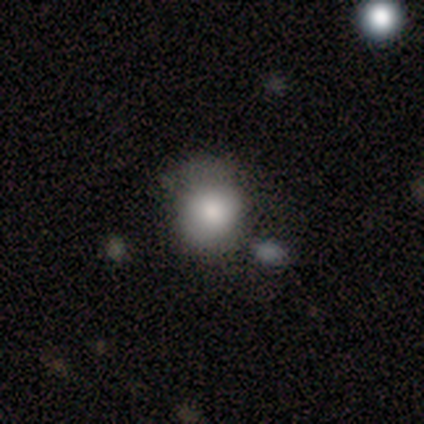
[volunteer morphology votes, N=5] smooth-or-featured: smooth: 100% | featured or disk: 0% | star or artifact: 0%
  how-rounded: round: 80% | in between: 20% | cigar-shaped: 0%
  merging: none: 60% | minor disturbance: 40% | major disturbance: 0% | merger: 0%